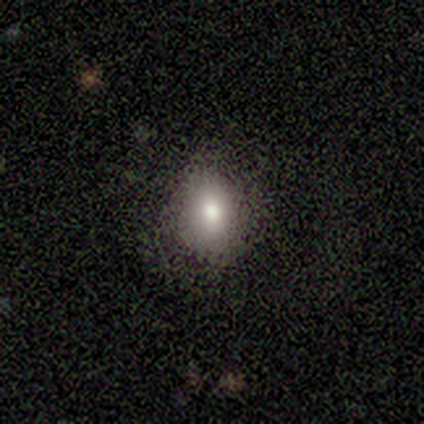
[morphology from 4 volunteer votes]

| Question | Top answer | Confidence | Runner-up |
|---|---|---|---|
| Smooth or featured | smooth | 100% | — |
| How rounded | in between | 100% | — |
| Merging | minor disturbance | 75% | none (25%) |